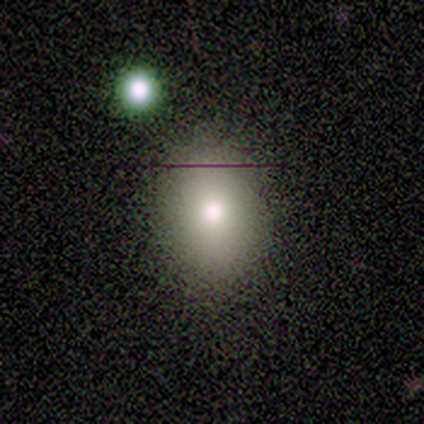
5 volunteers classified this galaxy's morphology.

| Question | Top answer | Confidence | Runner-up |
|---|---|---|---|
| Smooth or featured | smooth | 100% | — |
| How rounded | round | 80% | in between (20%) |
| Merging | none | 40% | tied: minor disturbance (40%) |